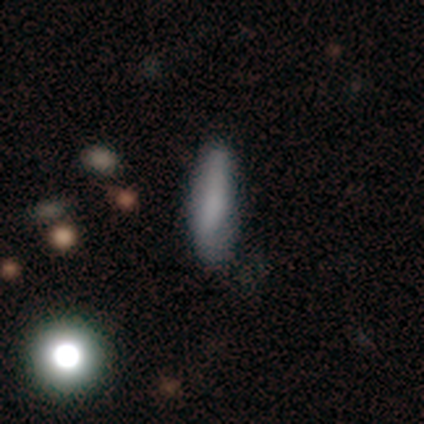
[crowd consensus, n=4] Q: Smooth or featured?
A: smooth (100%)
Q: How rounded?
A: cigar-shaped (100%)
Q: Merging?
A: none (100%)